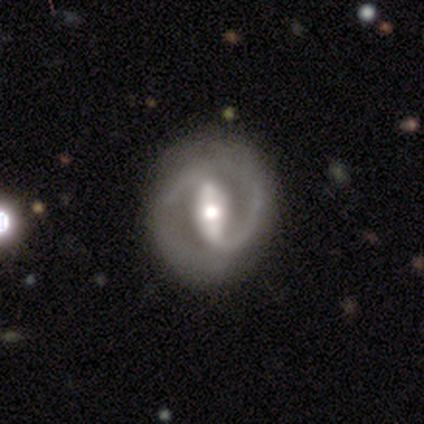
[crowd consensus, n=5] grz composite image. It shows a featured or disk galaxy (100%) with a strong bar (80%), 2 (100%) tight (40%, tied with medium) spiral arms (100%) and a moderate central bulge (60%). Merging: none (80%).